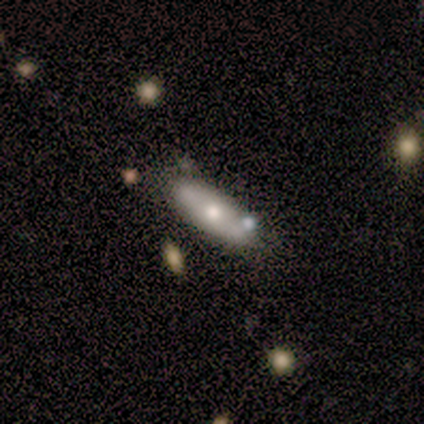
Q: Smooth or featured?
A: smooth (64%); runner-up: featured or disk (23%)
Q: How rounded?
A: in between (76%); runner-up: cigar-shaped (24%)
Q: Merging?
A: none (62%); runner-up: minor disturbance (24%)